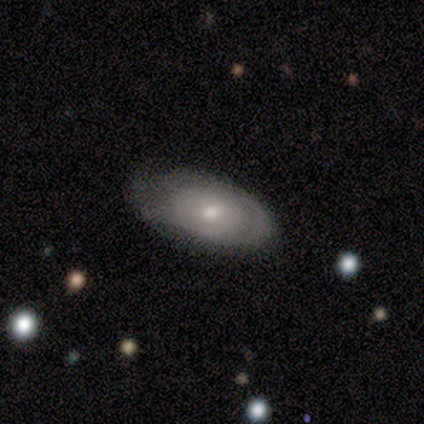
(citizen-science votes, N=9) This appears to be a featured or disk galaxy (56%) with no bar (100%), tight (100%) spiral arms (60%) and a moderate central bulge (80%). Merging: none (67%).